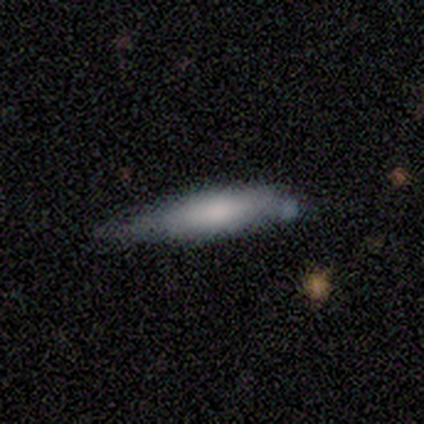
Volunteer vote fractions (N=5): Smooth or featured? smooth (60%)
How rounded? cigar-shaped (67%)
Merging? none (50%, tied with minor disturbance)